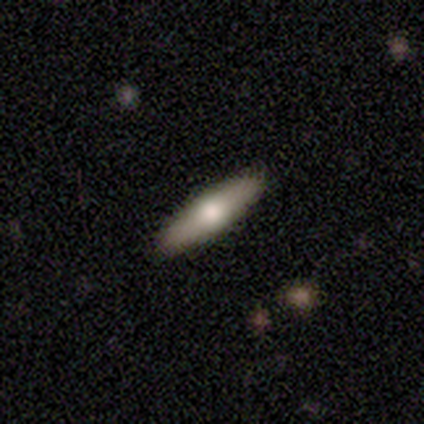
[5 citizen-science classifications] Morphology: type=smooth (60%); roundness=cigar-shaped (100%); merging=none (80%).